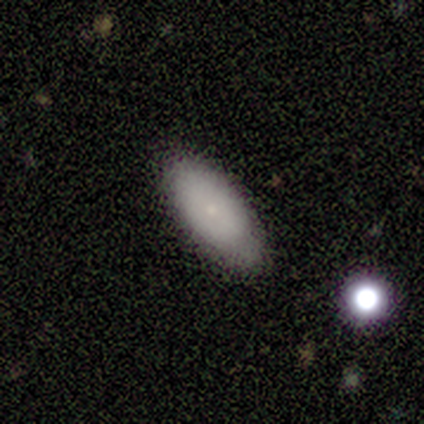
smooth 80%, featured or disk 20%, star or artifact 0%. Down the decision tree: how rounded — in between (100%); merging — minor disturbance (60%).